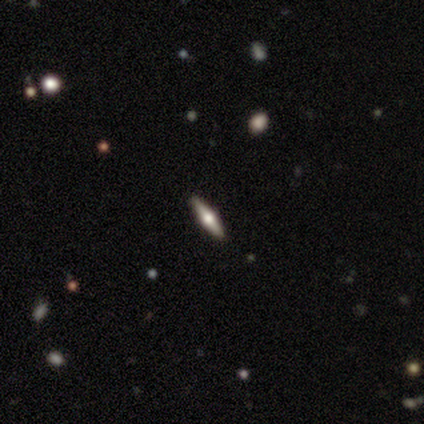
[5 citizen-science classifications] smooth_or_featured: featured or disk (p=0.60) [alt: smooth p=0.40]
disk_edge_on: yes (p=1.00)
edge_on_bulge: rounded (p=1.00)
merging: none (p=1.00)